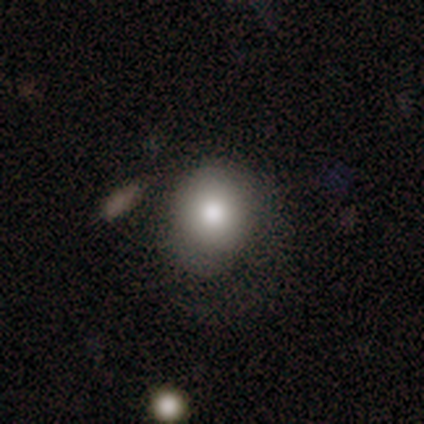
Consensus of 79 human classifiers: Smooth or featured? smooth (84%)
How rounded? round (71%)
Merging? none (36%)